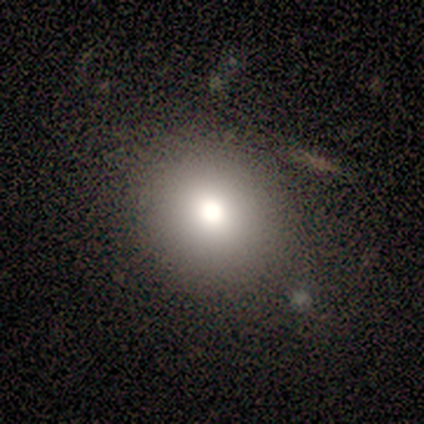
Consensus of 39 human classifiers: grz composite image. It shows a smooth galaxy with no disk features (87%) that is round (85%). Merging: none (91%).